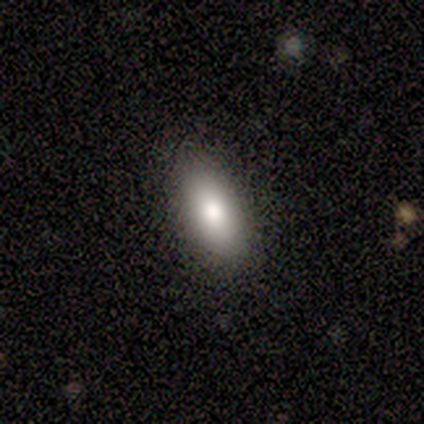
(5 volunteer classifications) A smooth galaxy with no disk features (80%) that is in between round and cigar-shaped (100%).

Vote fractions:
- Smooth or featured? smooth: 80% / star or artifact: 20% / featured or disk: 0%
- How rounded? in between: 100% / round: 0% / cigar-shaped: 0%
- Merging? none: 100% / minor disturbance: 0% / major disturbance: 0% / merger: 0%